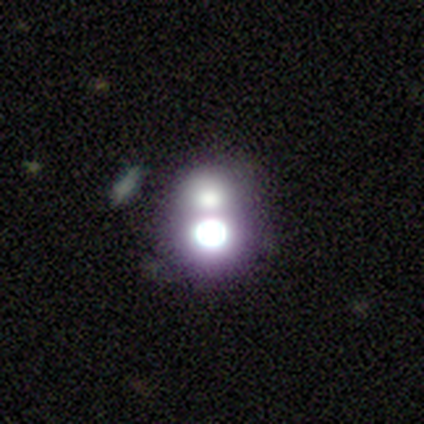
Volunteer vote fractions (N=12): Q: Smooth or featured?
A: smooth (42%); runner-up: featured or disk (33%)
Q: How rounded?
A: round (80%); runner-up: in between (20%)
Q: Merging?
A: merger (67%); runner-up: none (33%)